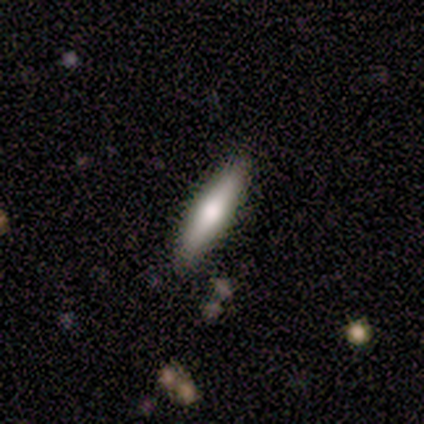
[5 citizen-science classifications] Smooth or featured?
  - smooth: 60% *
  - featured or disk: 40%
  - star or artifact: 0%
How rounded?
  - in between: 67% *
  - cigar-shaped: 33%
  - round: 0%
Merging?
  - none: 100% *
  - minor disturbance: 0%
  - major disturbance: 0%
  - merger: 0%